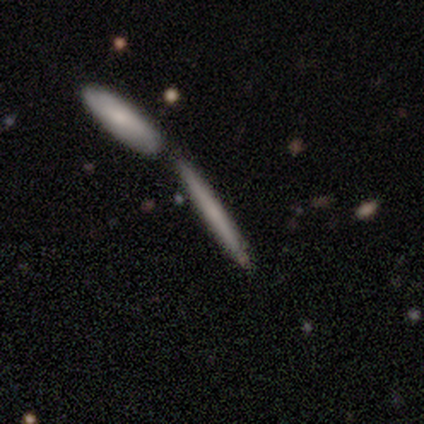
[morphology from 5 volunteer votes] This appears to be a smooth galaxy with no disk features (100%) that is cigar-shaped (100%). Merging: none (60%).